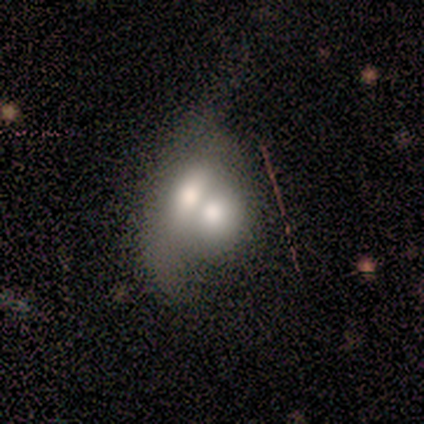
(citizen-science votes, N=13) Smooth or featured? 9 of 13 (69%) said smooth. How rounded? 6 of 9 (67%) said in between. Merging? 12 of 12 (100%) said merger.